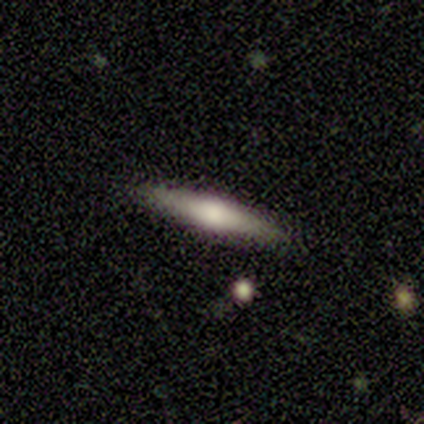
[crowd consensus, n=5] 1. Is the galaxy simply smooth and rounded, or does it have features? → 60% featured or disk, 40% smooth, 0% star or artifact.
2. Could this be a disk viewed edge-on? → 67% yes, 33% no.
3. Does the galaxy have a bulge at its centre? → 100% rounded, 0% boxy, 0% none.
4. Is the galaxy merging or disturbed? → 80% none, 20% minor disturbance, 0% major disturbance, 0% merger.